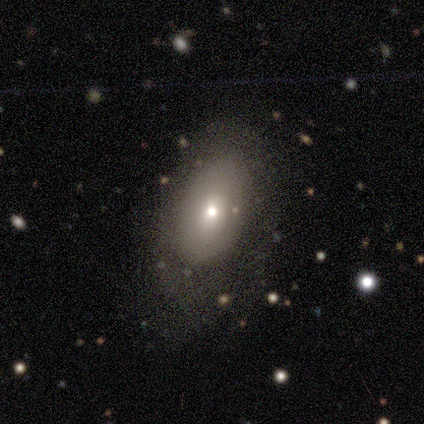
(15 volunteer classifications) smooth_or_featured: smooth (p=0.73) [alt: featured or disk p=0.20]
how_rounded: in between (p=0.91) [alt: round p=0.09]
merging: none (p=0.79) [alt: minor disturbance p=0.14]